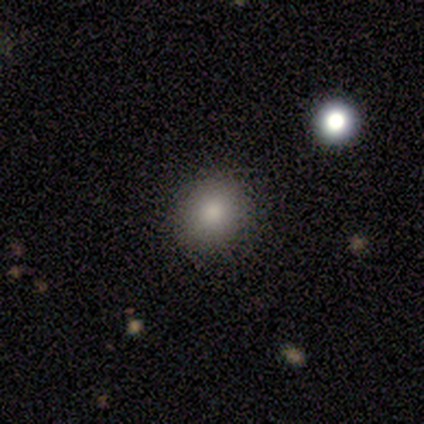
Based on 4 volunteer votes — smooth_or_featured: smooth (p=0.50) [tied with: star or artifact p=0.50]
how_rounded: round (p=0.50) [tied with: in between p=0.50]
merging: none (p=1.00)